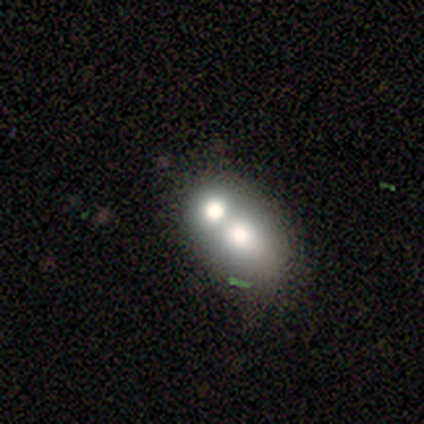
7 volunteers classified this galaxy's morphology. smooth_or_featured: smooth (p=0.71) [alt: featured or disk p=0.29]
how_rounded: in between (p=0.60) [alt: round p=0.40]
merging: merger (p=0.71) [alt: none p=0.14]